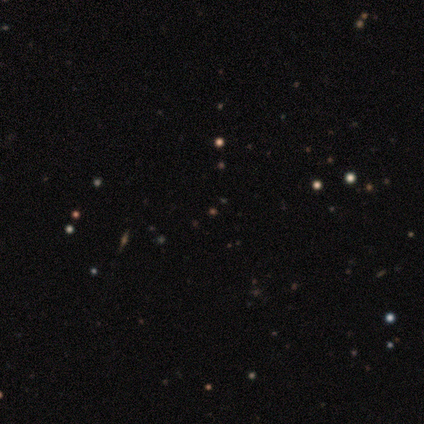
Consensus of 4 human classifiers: A star or artifact, not a galaxy (75%).

Vote fractions:
- Smooth or featured? star or artifact: 75% / featured or disk: 25% / smooth: 0%